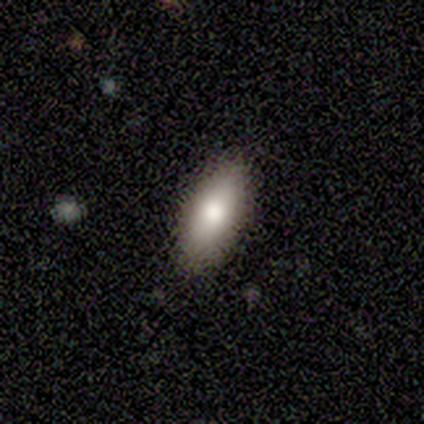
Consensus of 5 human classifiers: Volunteers were most divided on "merging": none: 80%, minor disturbance: 20%, major disturbance: 0%, merger: 0%. More confident: smooth or featured — smooth (100%); how rounded — in between (100%).